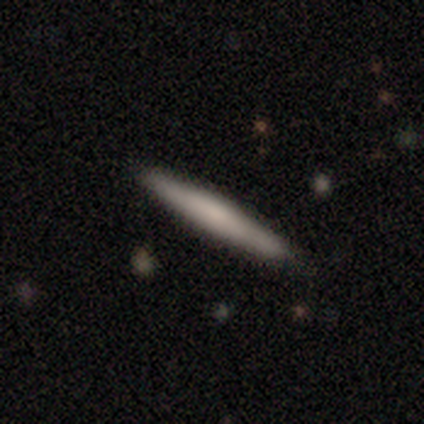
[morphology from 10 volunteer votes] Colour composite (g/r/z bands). It shows a smooth galaxy with no disk features (60%) that is cigar-shaped (100%). Merging: none (100%).